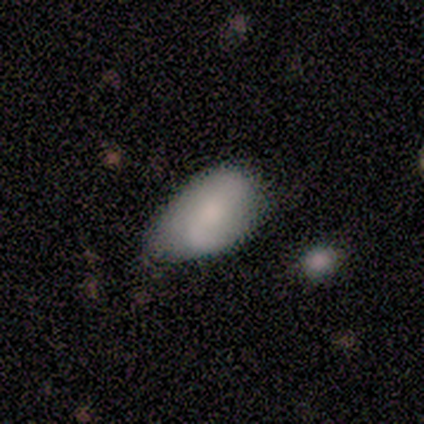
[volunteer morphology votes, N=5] smooth_or_featured: featured or disk (p=0.60) [alt: smooth p=0.40]
disk_edge_on: no (p=1.00)
bar: strong (p=0.33) [tied with: weak p=0.33, no p=0.33]
has_spiral_arms: yes (p=0.67) [alt: no p=0.33]
spiral_winding: loose (p=1.00)
spiral_arm_count: 2 (p=1.00)
bulge_size: large (p=0.33) [tied with: moderate p=0.33, none p=0.33]
merging: none (p=0.60) [alt: minor disturbance p=0.20]